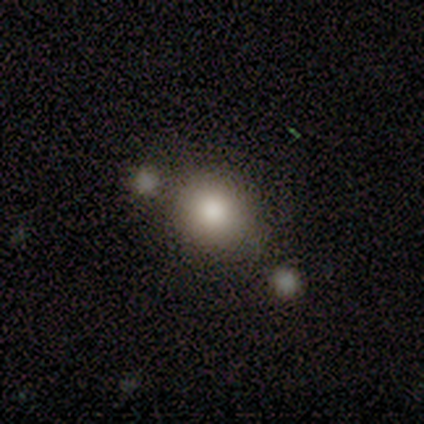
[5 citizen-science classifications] A smooth galaxy with no disk features (80%) that is round (75%). Merging: none (60%).